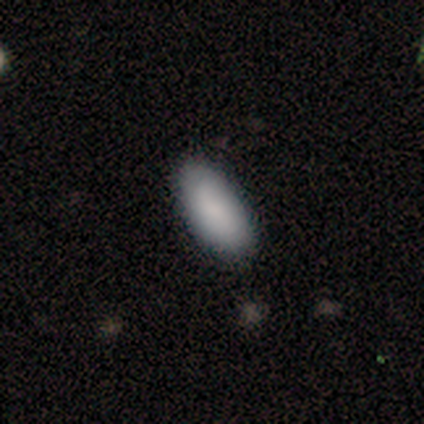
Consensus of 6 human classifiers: Overall: smooth (50%; featured or disk 33%). How rounded: in between (67%; cigar-shaped 33%). Merging: none (100%).